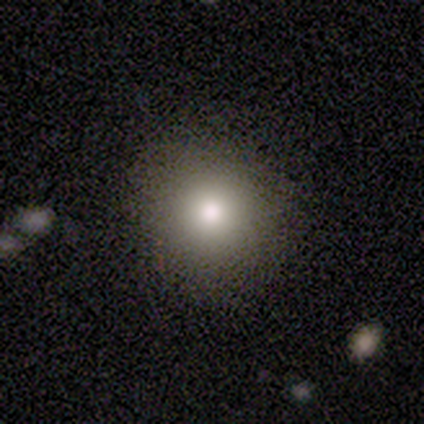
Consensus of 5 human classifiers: Smooth or featured?
  - smooth: 80% *
  - featured or disk: 20%
  - star or artifact: 0%
How rounded?
  - round: 50% * (tied)
  - in between: 50% * (tied)
  - cigar-shaped: 0%
Merging?
  - none: 80% *
  - minor disturbance: 20%
  - major disturbance: 0%
  - merger: 0%